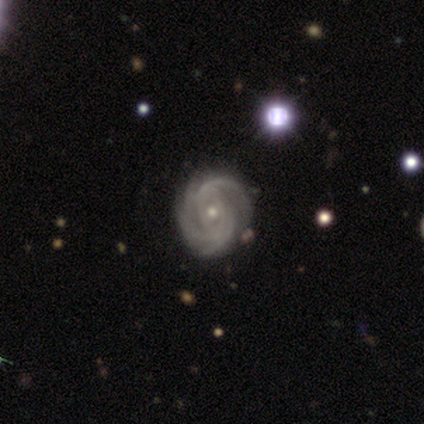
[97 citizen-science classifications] Smooth or featured: featured or disk — 94% (star or artifact — 5%)
Edge-on disk: no — 97% (yes — 3%)
Bar: no — 77% (weak — 17%)
Spiral arms: yes — 99% (no — 1%)
Spiral winding: tight — 59% (medium — 37%)
Spiral arm count: 2 — 25% (tied with 3 — 25%)
Bulge size: small — 56% (moderate — 42%)
Merging: none — 76% (minor disturbance — 22%)